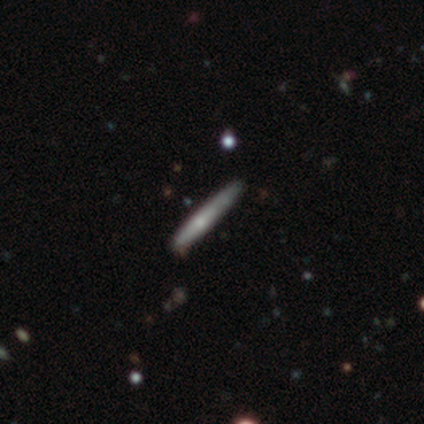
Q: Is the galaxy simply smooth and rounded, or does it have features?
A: featured or disk — 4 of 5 (80%).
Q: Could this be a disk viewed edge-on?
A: yes — 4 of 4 (100%).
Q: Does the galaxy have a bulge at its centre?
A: none — 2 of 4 (50%, tied with rounded).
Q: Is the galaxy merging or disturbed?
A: none — 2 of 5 (40%, tied with minor disturbance).